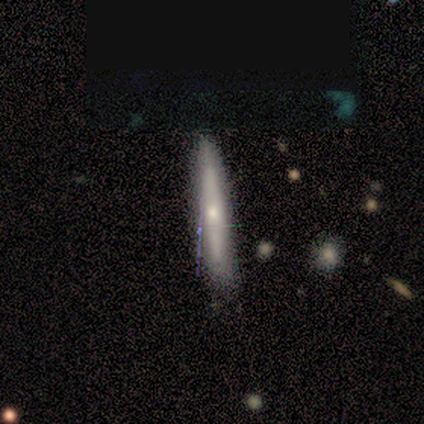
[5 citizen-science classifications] Volunteers were most divided on "smooth or featured": smooth: 60%, featured or disk: 40%, star or artifact: 0%. More confident: how rounded — cigar-shaped (100%); merging — none (80%).